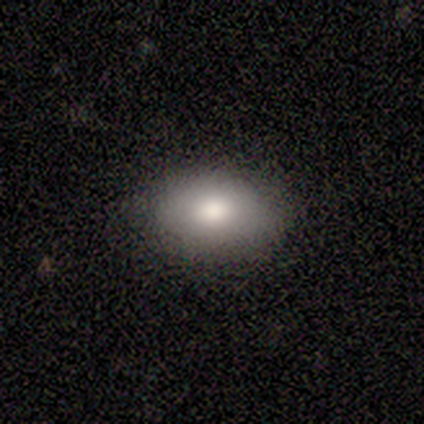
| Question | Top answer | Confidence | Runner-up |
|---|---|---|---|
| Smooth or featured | smooth | 100% | — |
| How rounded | in between | 75% | round (25%) |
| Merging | none | 75% | minor disturbance (25%) |